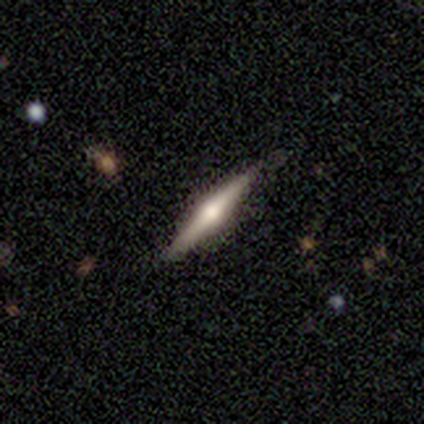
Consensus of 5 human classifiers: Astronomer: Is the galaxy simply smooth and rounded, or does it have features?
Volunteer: smooth — 40%, tied with featured or disk at 40%.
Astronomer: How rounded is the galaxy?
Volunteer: cigar-shaped — 100%.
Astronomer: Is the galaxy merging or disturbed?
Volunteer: none — 100%.